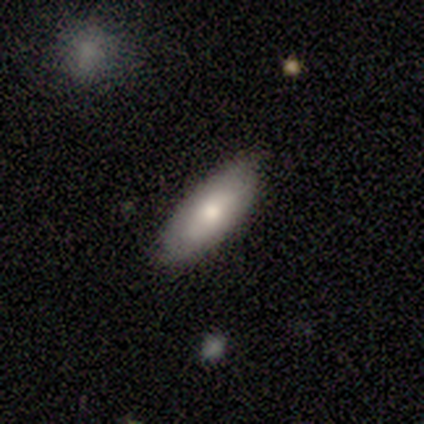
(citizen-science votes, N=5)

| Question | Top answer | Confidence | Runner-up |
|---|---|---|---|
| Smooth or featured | smooth | 80% | featured or disk (20%) |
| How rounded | in between | 100% | — |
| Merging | none | 80% | minor disturbance (20%) |